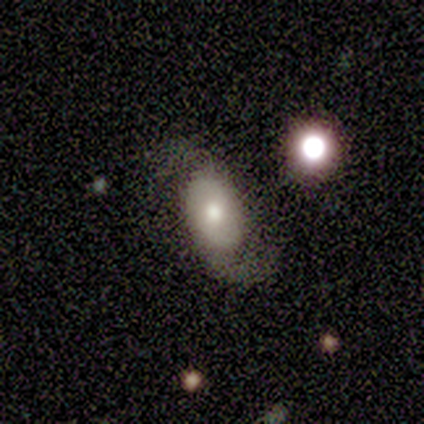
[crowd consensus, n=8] Overall: featured or disk (75%). Edge-on disk: no (100%). Bar: no (67%). Spiral arms: yes (100%). Spiral arm count: 2 (100%). Spiral winding: loose (83%). Bulge size: moderate (100%). Merging: none (57%; major disturbance 29%).